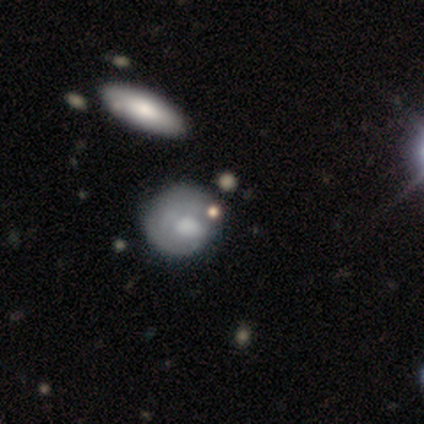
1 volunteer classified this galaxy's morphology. Smooth or featured?
  - smooth: 100% *
  - featured or disk: 0%
  - star or artifact: 0%
How rounded?
  - round: 100% *
  - in between: 0%
  - cigar-shaped: 0%
Merging?
  - none: 100% *
  - minor disturbance: 0%
  - major disturbance: 0%
  - merger: 0%